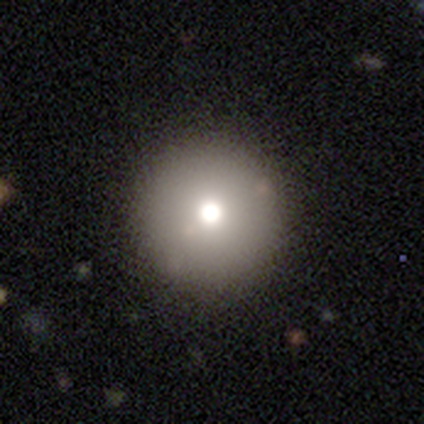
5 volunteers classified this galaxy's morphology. This appears to be a smooth galaxy with no disk features (100%) that is round (100%). Merging: none (100%).